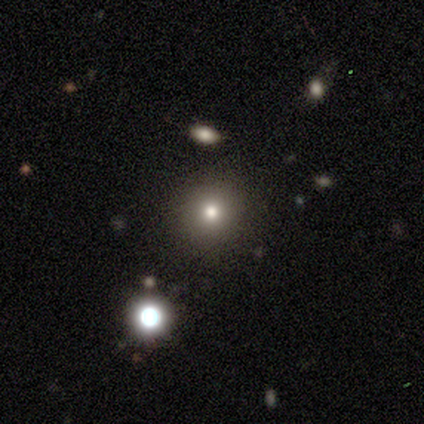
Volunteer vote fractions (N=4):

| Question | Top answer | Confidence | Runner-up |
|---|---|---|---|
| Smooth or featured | smooth | 75% | star or artifact (25%) |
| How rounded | round | 67% | cigar-shaped (33%) |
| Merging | none | 67% | minor disturbance (33%) |